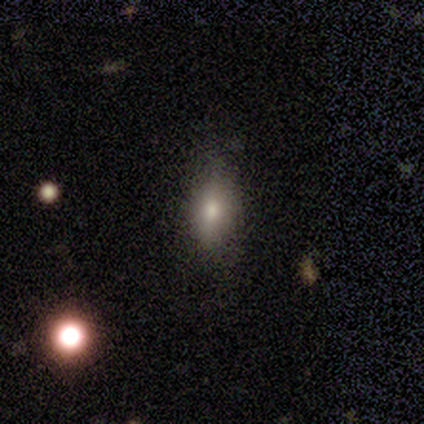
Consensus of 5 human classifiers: smooth-or-featured: smooth: 40% (tied) | featured or disk: 40% (tied) | star or artifact: 20%
  how-rounded: in between: 50% (tied) | cigar-shaped: 50% (tied) | round: 0%
  merging: none: 75% | minor disturbance: 25% | major disturbance: 0% | merger: 0%